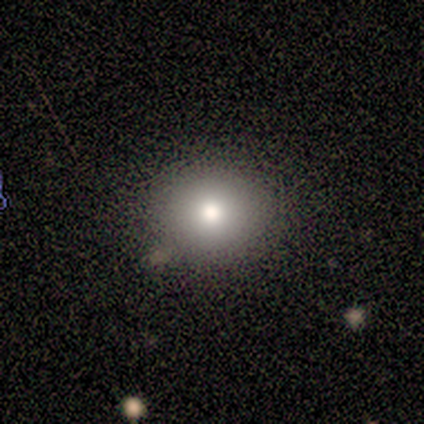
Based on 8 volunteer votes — This is likely a smooth galaxy (75%). How rounded: possibly round (50%, tied with in between). Merging: clearly none (100%).